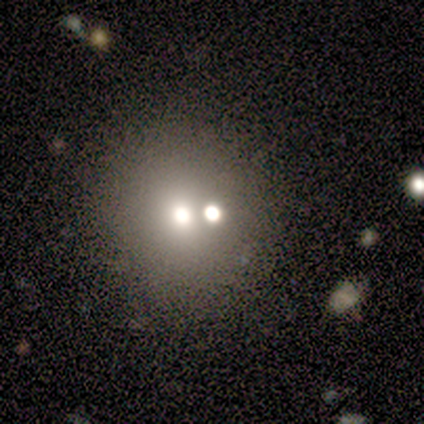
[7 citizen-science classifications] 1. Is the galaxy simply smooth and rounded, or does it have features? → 57% star or artifact, 29% featured or disk, 14% smooth.